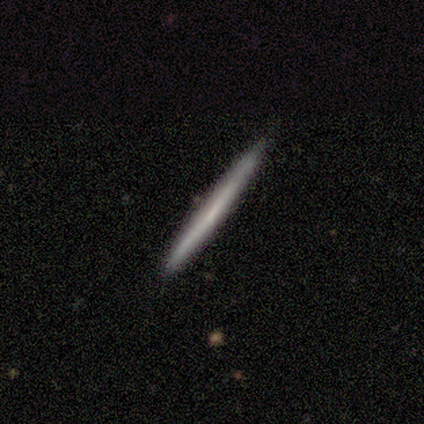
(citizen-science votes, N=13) This appears to be a smooth galaxy with no disk features (54%) that is cigar-shaped (100%). Merging: none (92%).